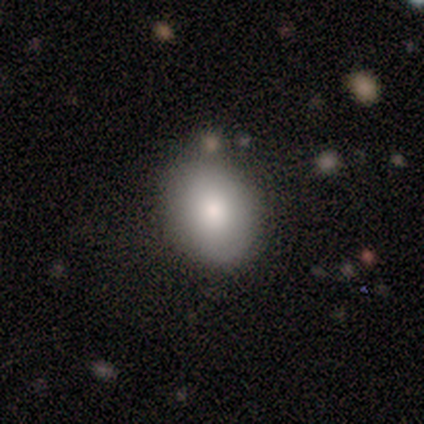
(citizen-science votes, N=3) smooth_or_featured: smooth (p=0.67) [alt: star or artifact p=0.33]
how_rounded: round (p=0.50) [tied with: in between p=0.50]
merging: none (p=0.50) [tied with: minor disturbance p=0.50]